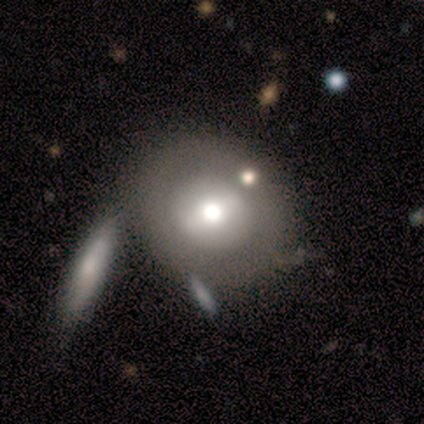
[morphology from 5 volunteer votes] This appears to be a featured or disk galaxy (80%) with a weak bar (50%, tied with no), no spiral arms (100%) and a large central bulge (50%, tied with moderate). Merging: none (60%).